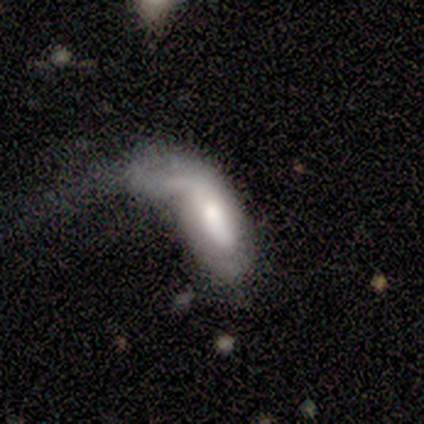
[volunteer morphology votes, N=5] smooth_or_featured: smooth (p=0.60) [alt: featured or disk p=0.40]
how_rounded: in between (p=0.67) [alt: cigar-shaped p=0.33]
merging: merger (p=0.80) [alt: major disturbance p=0.20]